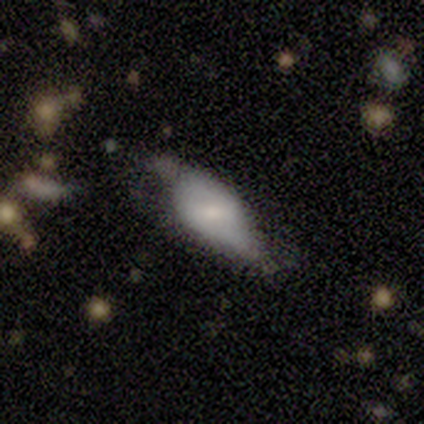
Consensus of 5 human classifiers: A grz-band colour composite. It shows a featured or disk galaxy (60%) with a weak bar (50%, tied with no), no spiral arms (100%) and a moderate central bulge (50%, tied with small). Merging: minor disturbance (60%).